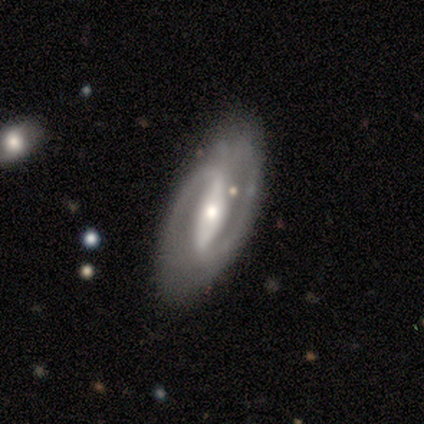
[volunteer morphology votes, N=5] Smooth or featured? 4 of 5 (80%) said featured or disk. Edge-on disk? 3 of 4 (75%) said no. Bar? 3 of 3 (100%) said strong. Spiral arms? 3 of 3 (100%) said yes. Spiral winding? 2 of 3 (67%) said loose. Spiral arm count? 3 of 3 (100%) said 2. Bulge size? 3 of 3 (100%) said small. Merging? 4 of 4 (100%) said none.